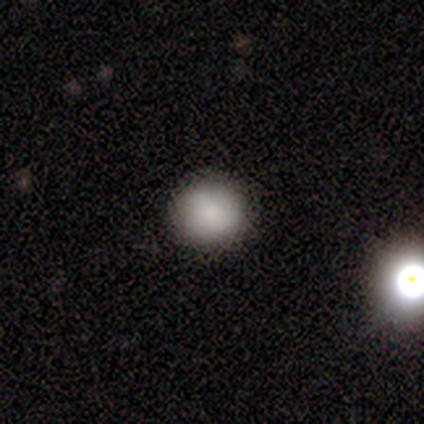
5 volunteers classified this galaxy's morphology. smooth_or_featured: smooth (p=1.00)
how_rounded: round (p=0.80) [alt: in between p=0.20]
merging: none (p=0.80) [alt: minor disturbance p=0.20]